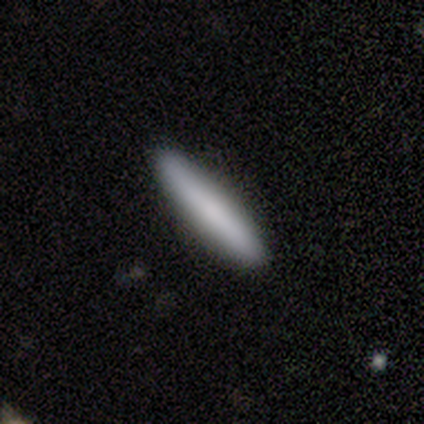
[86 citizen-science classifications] Q: Smooth or featured?
A: smooth (74%); runner-up: featured or disk (20%)
Q: How rounded?
A: cigar-shaped (91%); runner-up: in between (9%)
Q: Merging?
A: none (95%); runner-up: minor disturbance (2%)